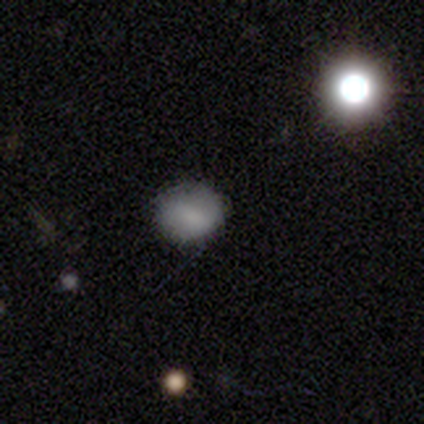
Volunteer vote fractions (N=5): This is clearly a smooth galaxy (100%). How rounded: clearly round (80%). Merging: clearly none (80%).